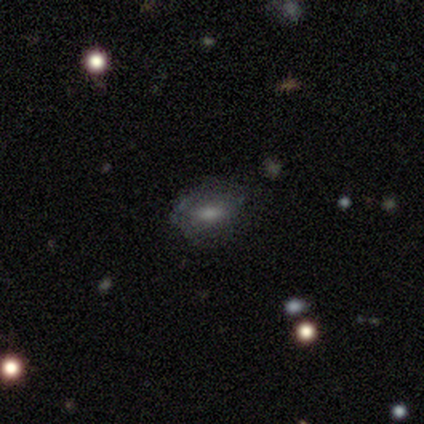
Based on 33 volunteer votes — Smooth or featured? smooth (73%)
How rounded? in between (92%)
Merging? none (55%)